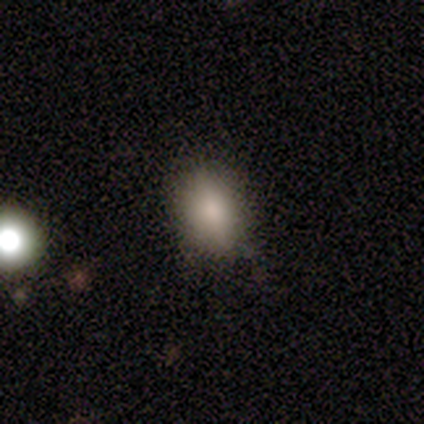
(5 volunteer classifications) Q: Smooth or featured?
A: smooth (100%)
Q: How rounded?
A: in between (100%)
Q: Merging?
A: none (60%); runner-up: minor disturbance (40%)